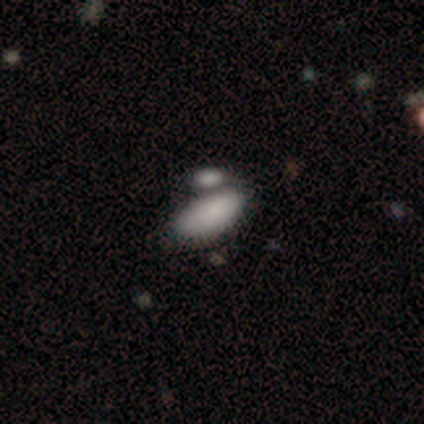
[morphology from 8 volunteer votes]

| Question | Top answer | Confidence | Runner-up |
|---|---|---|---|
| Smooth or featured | smooth | 100% | — |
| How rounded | in between | 88% | cigar-shaped (12%) |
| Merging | none | 38% | tied: merger (38%) |